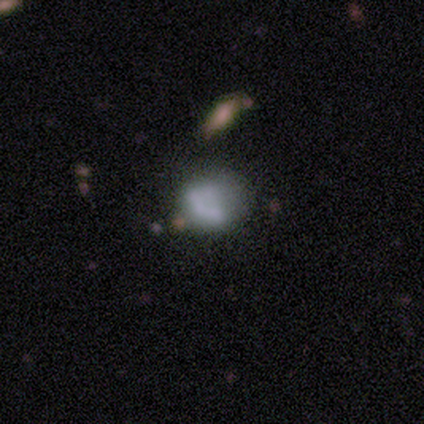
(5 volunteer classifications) Smooth or featured? 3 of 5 (60%) said smooth. How rounded? 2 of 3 (67%) said round. Merging? 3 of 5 (60%) said none.